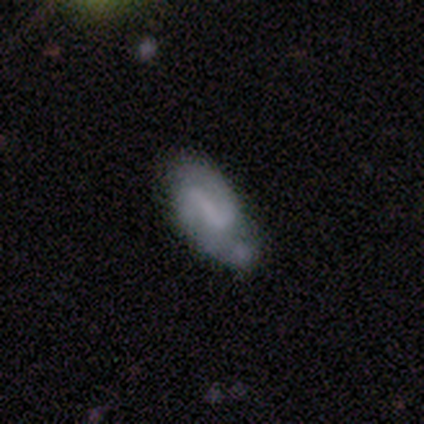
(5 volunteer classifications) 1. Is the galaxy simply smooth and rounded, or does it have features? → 100% featured or disk, 0% smooth, 0% star or artifact.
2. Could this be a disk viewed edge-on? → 80% no, 20% yes.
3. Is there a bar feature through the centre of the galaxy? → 50% strong (tied), 50% weak (tied), 0% no.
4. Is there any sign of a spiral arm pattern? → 100% yes, 0% no.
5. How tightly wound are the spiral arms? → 100% medium, 0% tight, 0% loose.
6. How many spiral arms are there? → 100% 2, 0% 1, 0% 3, 0% 4, 0% more than 4, 0% can't tell.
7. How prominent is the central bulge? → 50% small (tied), 50% none (tied), 0% dominant, 0% large, 0% moderate.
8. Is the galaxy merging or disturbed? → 60% none, 20% minor disturbance, 20% merger, 0% major disturbance.